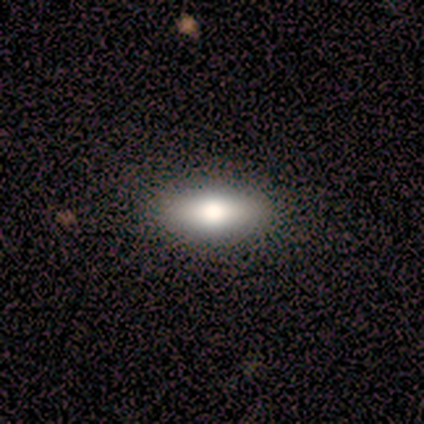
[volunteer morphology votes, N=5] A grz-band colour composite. It shows a smooth galaxy with no disk features (80%) that is in between round and cigar-shaped (75%). Merging: none (100%).